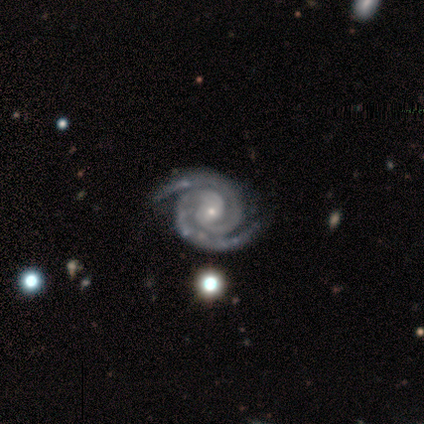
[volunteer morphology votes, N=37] Smooth or featured? featured or disk (92%)
Edge-on disk? no (100%)
Bar? no (71%)
Spiral arms? yes (100%)
Spiral winding? tight (79%)
Spiral arm count? 2 (100%)
Bulge size? small (85%)
Merging? none (67%)